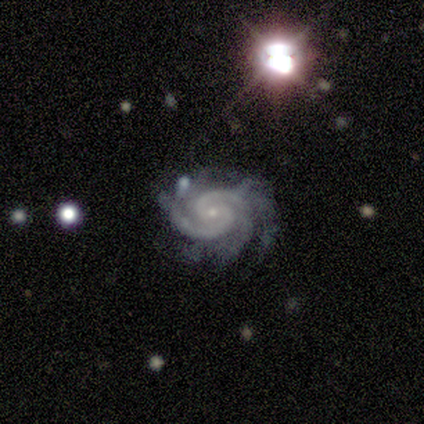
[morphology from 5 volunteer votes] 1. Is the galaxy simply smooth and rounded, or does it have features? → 100% featured or disk, 0% smooth, 0% star or artifact.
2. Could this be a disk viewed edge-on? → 100% no, 0% yes.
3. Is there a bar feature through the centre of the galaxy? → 80% no, 20% weak, 0% strong.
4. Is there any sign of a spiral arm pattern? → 100% yes, 0% no.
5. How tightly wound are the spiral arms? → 60% tight, 40% medium, 0% loose.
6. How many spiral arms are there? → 100% 2, 0% 1, 0% 3, 0% 4, 0% more than 4, 0% can't tell.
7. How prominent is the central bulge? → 100% small, 0% dominant, 0% large, 0% moderate, 0% none.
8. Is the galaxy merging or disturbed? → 60% minor disturbance, 20% none, 20% merger, 0% major disturbance.